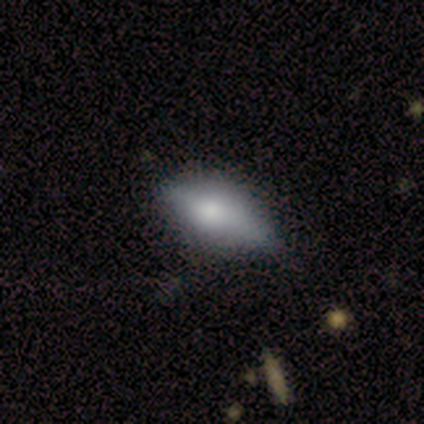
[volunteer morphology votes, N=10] Smooth or featured? smooth (50%)
How rounded? in between (100%)
Merging? none (50%, tied with minor disturbance)